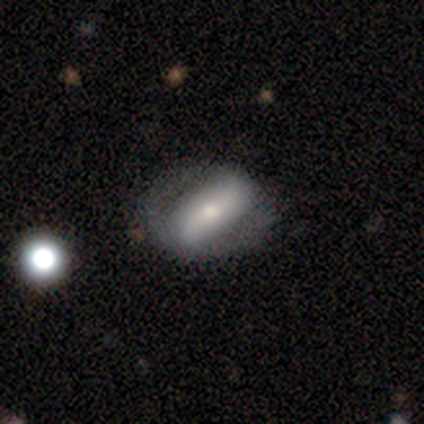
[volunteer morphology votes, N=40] Overall: featured or disk (62%; smooth 30%). Edge-on disk: no (92%). Bar: strong (74%). Spiral arms: yes (65%; no 35%). Spiral arm count: 2 (100%). Spiral winding: loose (47%; tight 27%). Bulge size: moderate (43%; small 30%). Merging: none (59%; minor disturbance 30%).